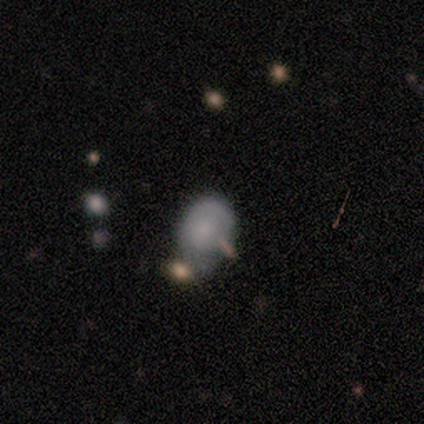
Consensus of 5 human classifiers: Morphology: type=smooth (100%); roundness=in between (60%); merging=minor disturbance (60%).